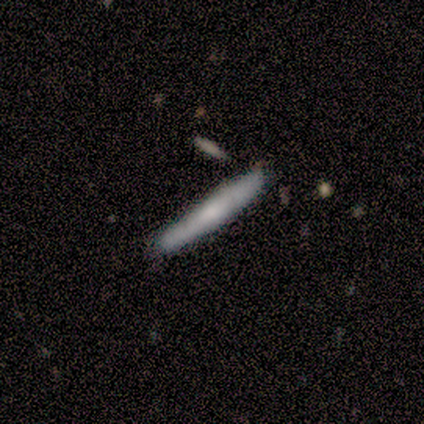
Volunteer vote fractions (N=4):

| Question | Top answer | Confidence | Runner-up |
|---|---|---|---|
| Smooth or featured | smooth | 75% | featured or disk (25%) |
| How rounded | cigar-shaped | 100% | — |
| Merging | none | 100% | — |